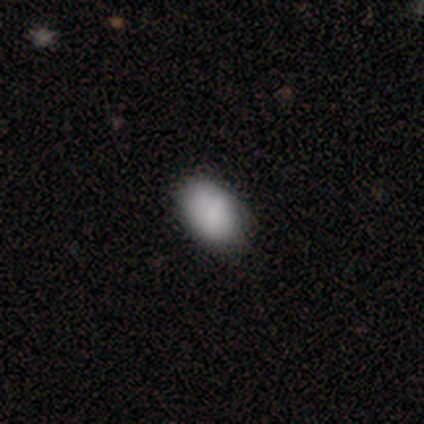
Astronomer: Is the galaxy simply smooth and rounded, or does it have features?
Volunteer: smooth — 75%.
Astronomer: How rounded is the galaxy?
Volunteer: in between — 100%.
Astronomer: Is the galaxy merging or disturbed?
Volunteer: none — 100%.